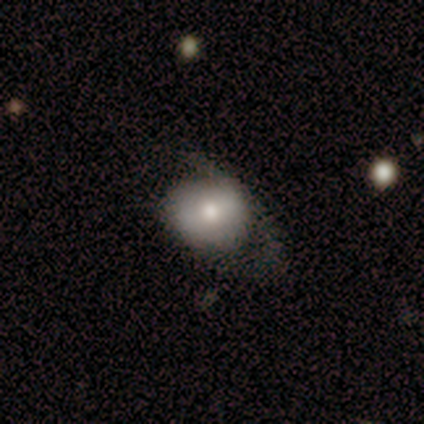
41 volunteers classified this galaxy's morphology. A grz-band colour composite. It shows a smooth galaxy with no disk features (56%) that is round (74%). Merging: minor disturbance (44%).